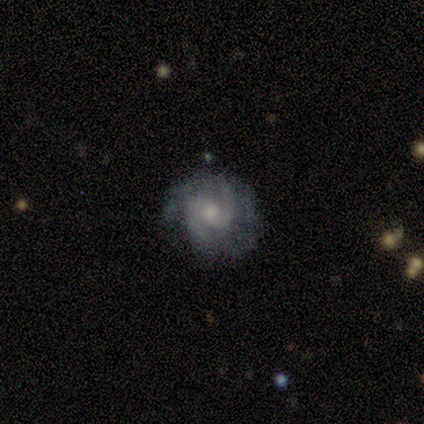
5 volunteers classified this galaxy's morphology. This is clearly a featured or disk galaxy (80%). It is clearly not viewed edge-on (100%). Bar: possibly weak (50%, tied with no). Spiral arm pattern: clearly yes (100%). Spiral arm count: likely 2 (75%). Spiral winding: likely medium (75%). Central bulge: likely moderate (75%). Merging: likely none (60%).